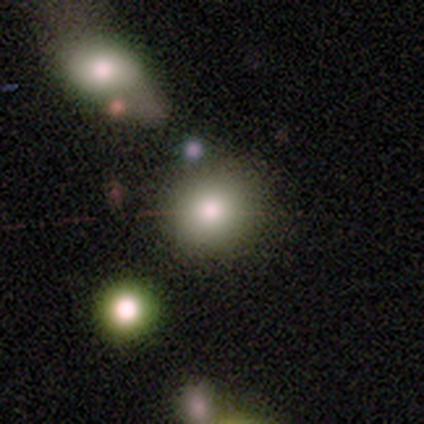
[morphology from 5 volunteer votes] Smooth or featured? smooth (80%)
How rounded? round (100%)
Merging? none (40%, tied with merger)